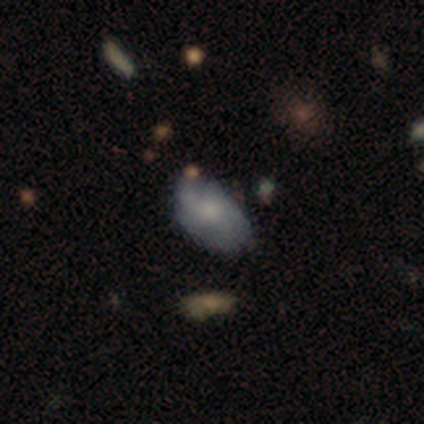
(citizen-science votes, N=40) Smooth or featured? smooth (62%)
How rounded? in between (92%)
Merging? none (64%)